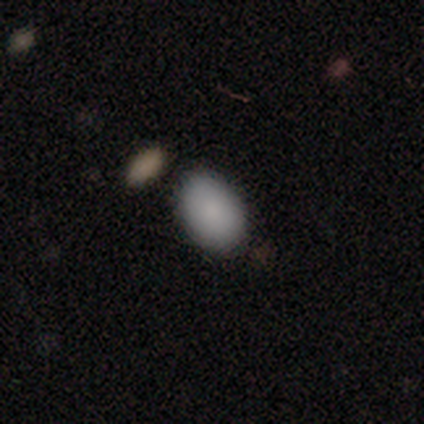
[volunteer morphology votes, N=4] Q: Smooth or featured?
A: smooth (75%); runner-up: star or artifact (25%)
Q: How rounded?
A: in between (100%)
Q: Merging?
A: none (100%)